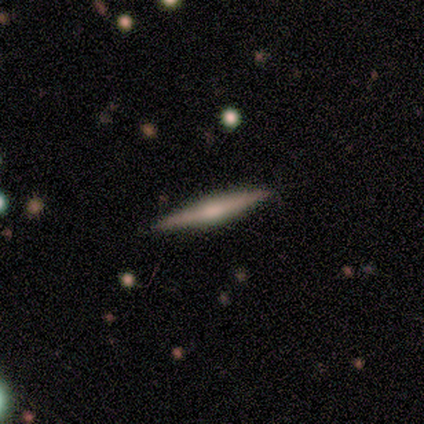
Consensus on every question: smooth or featured — featured or disk (100%); edge-on disk — yes (100%); edge-on bulge — none (100%); merging — none (100%).